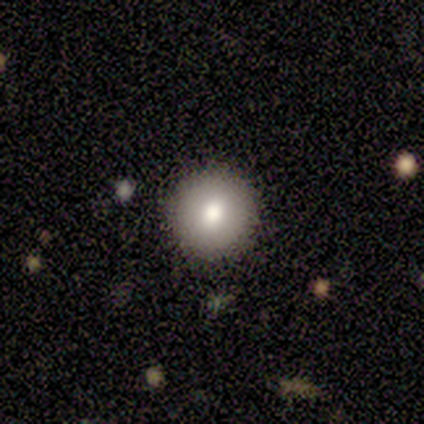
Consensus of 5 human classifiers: Overall: smooth (60%; featured or disk 20%). How rounded: round (100%). Merging: none (100%).